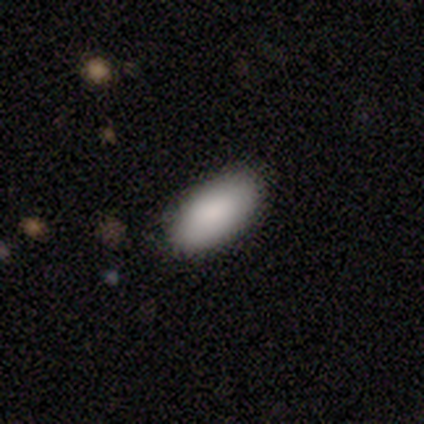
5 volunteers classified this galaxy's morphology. Q: Smooth or featured?
A: smooth (100%)
Q: How rounded?
A: in between (100%)
Q: Merging?
A: none (100%)